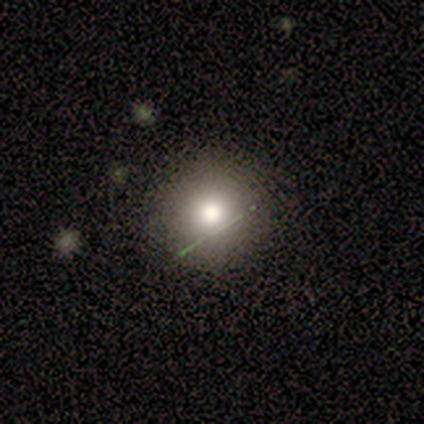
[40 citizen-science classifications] This appears to be a smooth galaxy with no disk features (82%) that is round (97%). Merging: none (78%).